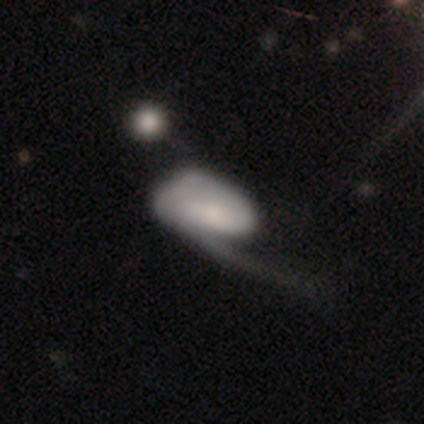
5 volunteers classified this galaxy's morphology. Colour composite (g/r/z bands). It shows a smooth galaxy with no disk features (60%) that is in between round and cigar-shaped (67%). Merging: none (60%).